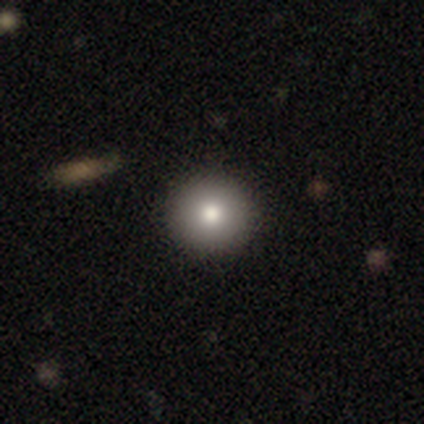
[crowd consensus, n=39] This appears to be a smooth galaxy with no disk features (90%) that is round (100%). Merging: none (61%).